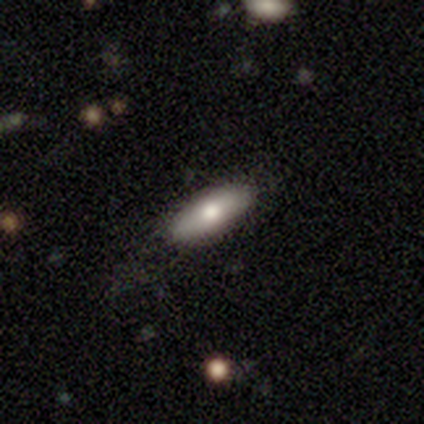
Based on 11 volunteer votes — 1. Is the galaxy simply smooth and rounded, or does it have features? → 91% smooth, 9% featured or disk, 0% star or artifact.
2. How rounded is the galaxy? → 80% in between, 20% cigar-shaped, 0% round.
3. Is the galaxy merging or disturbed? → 73% none, 27% minor disturbance, 0% major disturbance, 0% merger.